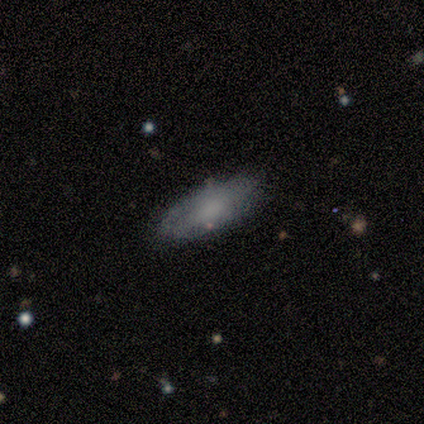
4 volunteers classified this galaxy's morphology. Smooth or featured? 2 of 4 (50%, tied with featured or disk) said smooth. How rounded? 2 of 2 (100%) said in between. Merging? 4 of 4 (100%) said none.